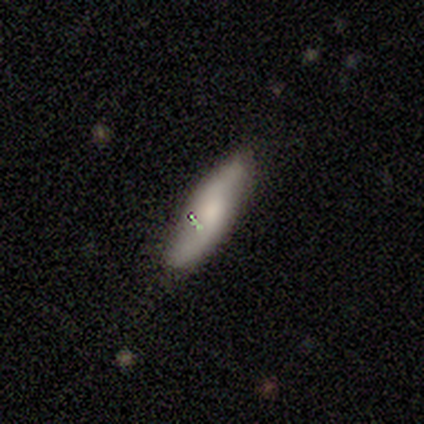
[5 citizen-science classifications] Volunteers were most divided on "smooth or featured": featured or disk: 60%, smooth: 40%, star or artifact: 0%. More confident: edge-on disk — no (100%); spiral arms — yes (100%); spiral winding — medium (100%); spiral arm count — 2 (100%); merging — none (80%); bar — no (67%); bulge size — moderate (67%).